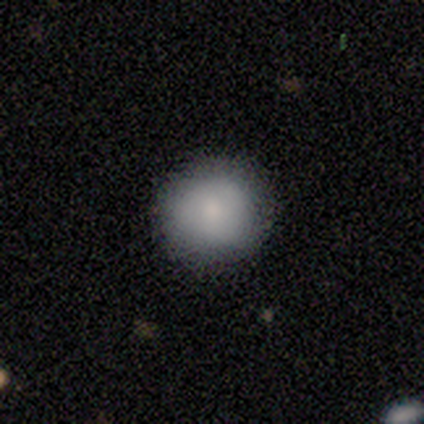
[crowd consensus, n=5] This is clearly a smooth galaxy (80%). How rounded: clearly round (100%). Merging: clearly none (100%).